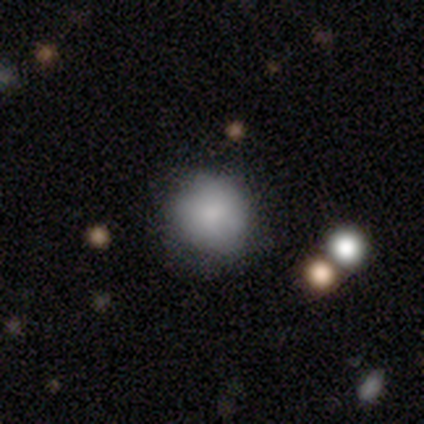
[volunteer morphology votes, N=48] Volunteers were most divided on "merging": none: 80%, minor disturbance: 18%, major disturbance: 2%, merger: 0%. More confident: how rounded — round (90%); smooth or featured — smooth (81%).